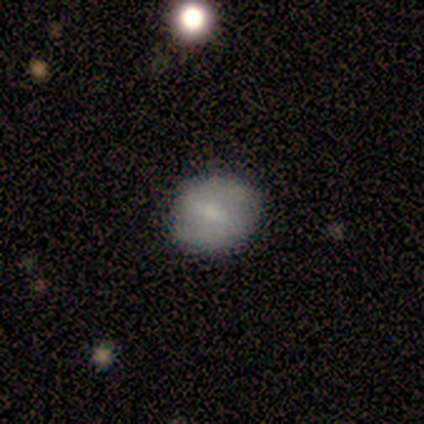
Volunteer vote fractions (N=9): smooth-or-featured: smooth: 56% | featured or disk: 44% | star or artifact: 0%
  how-rounded: round: 100% | in between: 0% | cigar-shaped: 0%
  merging: none: 100% | minor disturbance: 0% | major disturbance: 0% | merger: 0%